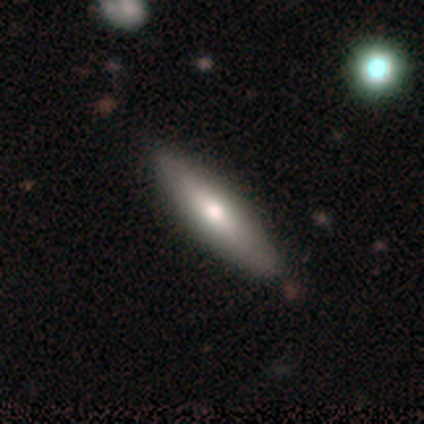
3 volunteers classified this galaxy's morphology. Smooth or featured? smooth (67%)
How rounded? in between (50%, tied with cigar-shaped)
Merging? none (100%)